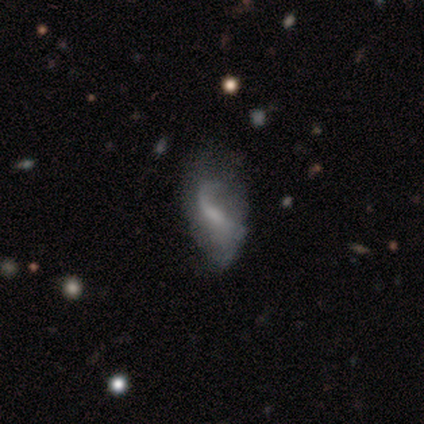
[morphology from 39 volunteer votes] This appears to be a featured or disk galaxy (77%) with a weak bar (48%), 1 (71%) loose (86%) spiral arms (72%) and a small central bulge (41%). Merging: none (46%).